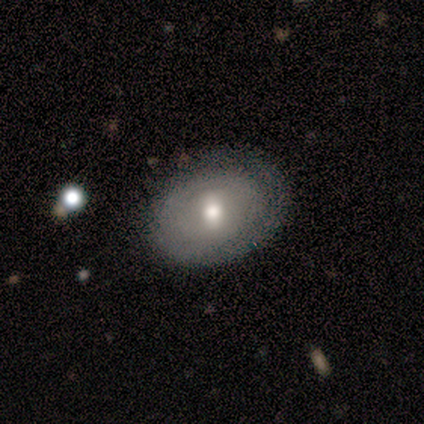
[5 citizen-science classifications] Smooth or featured? smooth (60%)
How rounded? in between (67%)
Merging? none (60%)